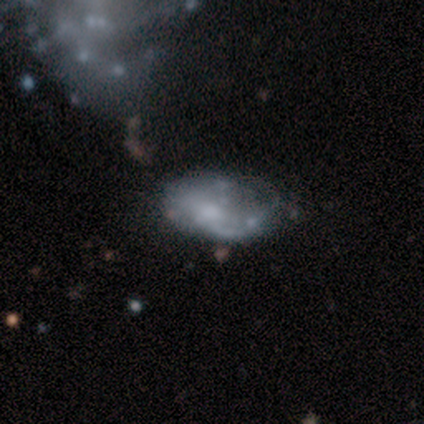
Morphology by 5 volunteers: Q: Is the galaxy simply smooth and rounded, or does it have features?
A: featured or disk — 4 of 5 (80%).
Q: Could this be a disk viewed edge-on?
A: no — 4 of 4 (100%).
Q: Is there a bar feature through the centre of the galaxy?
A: no — 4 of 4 (100%).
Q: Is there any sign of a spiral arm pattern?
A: yes — 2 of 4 (50%, tied with no).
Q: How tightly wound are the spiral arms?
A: medium — 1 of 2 (50%, tied with loose).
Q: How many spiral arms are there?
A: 1 — 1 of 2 (50%, tied with can't tell).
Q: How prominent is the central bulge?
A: moderate — 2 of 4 (50%, tied with none).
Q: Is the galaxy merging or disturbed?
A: none — 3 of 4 (75%).